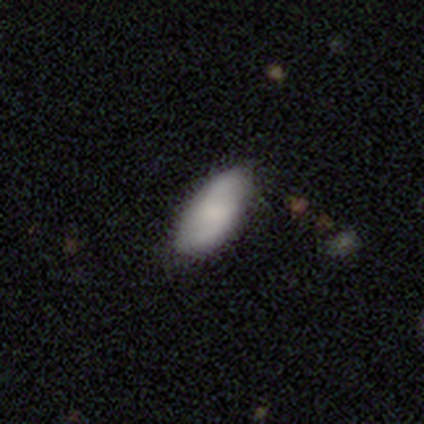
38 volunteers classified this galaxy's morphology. smooth 66%, featured or disk 34%, star or artifact 0%. Down the decision tree: how rounded — in between (96%); merging — none (87%).